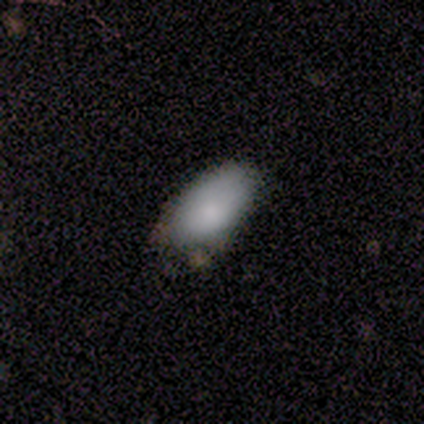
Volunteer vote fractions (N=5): Smooth or featured?
  - smooth: 100% *
  - featured or disk: 0%
  - star or artifact: 0%
How rounded?
  - in between: 100% *
  - round: 0%
  - cigar-shaped: 0%
Merging?
  - none: 60% *
  - minor disturbance: 40%
  - major disturbance: 0%
  - merger: 0%